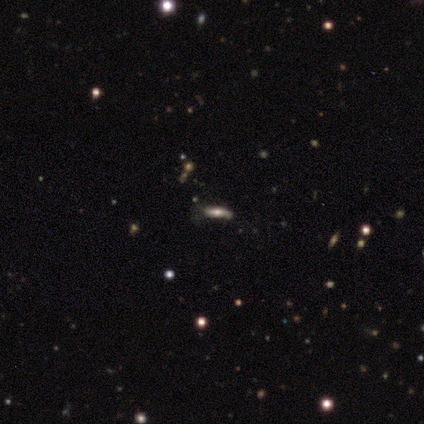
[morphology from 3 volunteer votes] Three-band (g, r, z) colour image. It shows a smooth galaxy with no disk features (33%, tied with featured or disk and star or artifact) that is in between round and cigar-shaped (100%). Merging: minor disturbance (50%, tied with major disturbance).